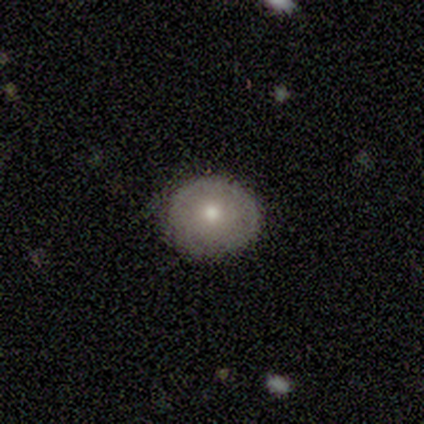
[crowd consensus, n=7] Q: Smooth or featured?
A: smooth (100%)
Q: How rounded?
A: round (71%); runner-up: in between (29%)
Q: Merging?
A: none (86%); runner-up: minor disturbance (14%)